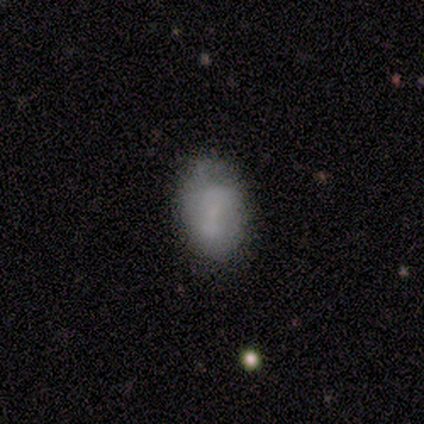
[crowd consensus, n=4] Smooth or featured? smooth (100%)
How rounded? in between (100%)
Merging? none (75%)